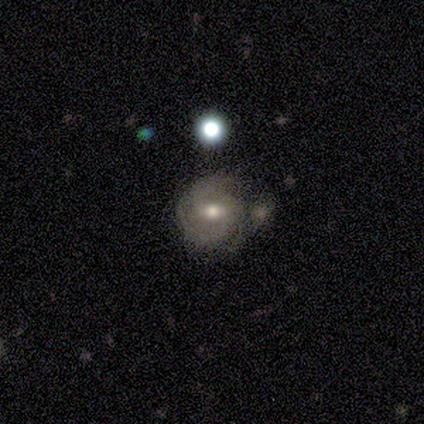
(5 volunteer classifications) A featured or disk galaxy (100%) with a weak bar (60%), 3 (60%) medium (60%) spiral arms (100%) and a moderate central bulge (60%).

Vote fractions:
- Smooth or featured? featured or disk: 100% / smooth: 0% / star or artifact: 0%
- Edge-on disk? no: 100% / yes: 0%
- Bar? weak: 60% / strong: 20% / no: 20%
- Spiral arms? yes: 100% / no: 0%
- Spiral winding? medium: 60% / tight: 40% / loose: 0%
- Spiral arm count? 3: 60% / 2: 20% / can't tell: 20% / 1: 0% / 4: 0% / more than 4: 0%
- Bulge size? moderate: 60% / large: 20% / small: 20% / dominant: 0% / none: 0%
- Merging? none: 60% / minor disturbance: 20% / major disturbance: 20% / merger: 0%